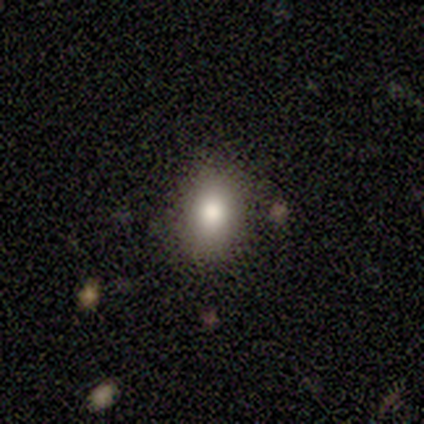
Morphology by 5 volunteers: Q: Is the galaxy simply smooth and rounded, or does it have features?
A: smooth — 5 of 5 (100%).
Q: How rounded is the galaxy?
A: in between — 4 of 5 (80%).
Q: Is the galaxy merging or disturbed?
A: none — 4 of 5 (80%).